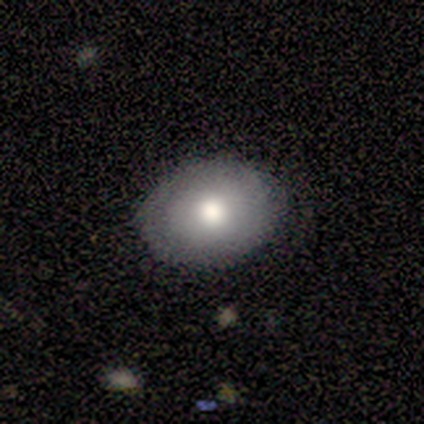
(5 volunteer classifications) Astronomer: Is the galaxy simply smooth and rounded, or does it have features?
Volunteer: smooth — 60% (runner-up: featured or disk, 40%).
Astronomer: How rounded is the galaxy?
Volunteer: in between — 67%.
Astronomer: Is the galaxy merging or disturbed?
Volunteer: none — 100%.